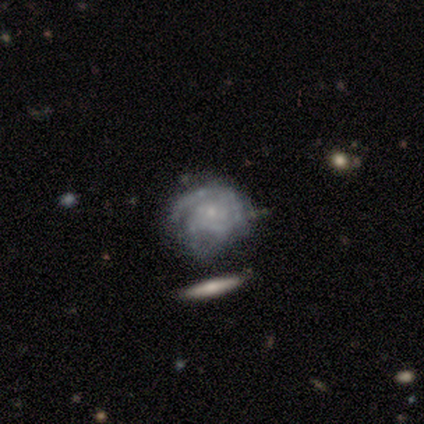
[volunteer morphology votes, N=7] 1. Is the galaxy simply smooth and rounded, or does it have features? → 100% featured or disk, 0% smooth, 0% star or artifact.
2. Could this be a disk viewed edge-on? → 100% no, 0% yes.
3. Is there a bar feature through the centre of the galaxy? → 86% no, 14% weak, 0% strong.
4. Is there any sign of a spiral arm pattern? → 100% yes, 0% no.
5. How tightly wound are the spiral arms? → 86% tight, 14% medium, 0% loose.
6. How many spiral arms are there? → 43% 3, 14% 1, 14% 2, 14% more than 4, 14% can't tell, 0% 4.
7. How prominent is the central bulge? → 100% small, 0% dominant, 0% large, 0% moderate, 0% none.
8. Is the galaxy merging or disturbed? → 57% minor disturbance, 43% none, 0% major disturbance, 0% merger.